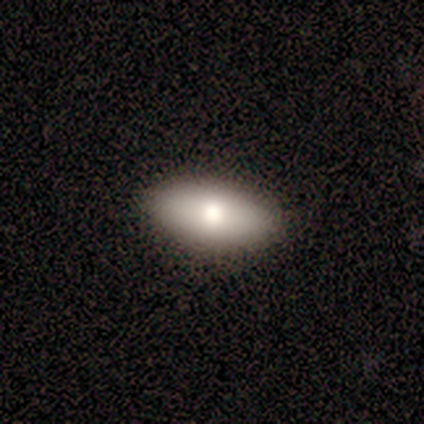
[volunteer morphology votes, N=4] This is possibly a smooth galaxy (50%, tied with featured or disk). How rounded: clearly in between (100%). Merging: clearly none (100%).